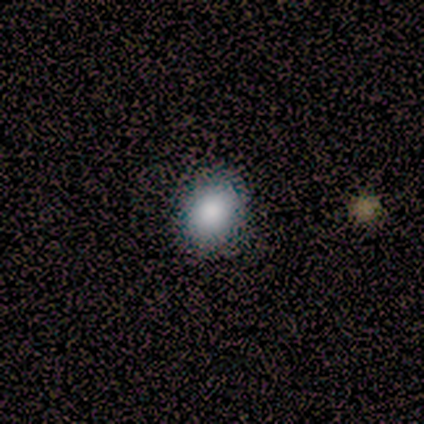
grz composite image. It shows a smooth galaxy with no disk features (67%) that is in between round and cigar-shaped (100%). Merging: none (100%).